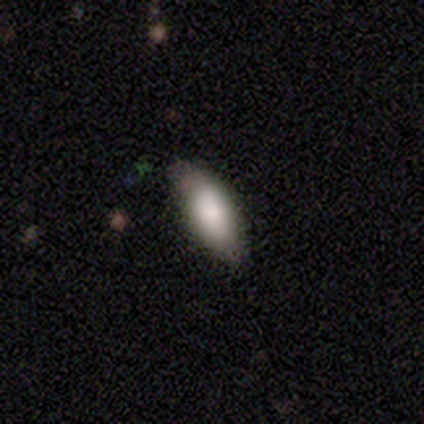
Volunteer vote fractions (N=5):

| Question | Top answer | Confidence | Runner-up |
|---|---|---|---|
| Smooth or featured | featured or disk | 60% | smooth (40%) |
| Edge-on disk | yes | 67% | no (33%) |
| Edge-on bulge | none | 50% | tied: rounded (50%) |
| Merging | none | 80% | minor disturbance (20%) |